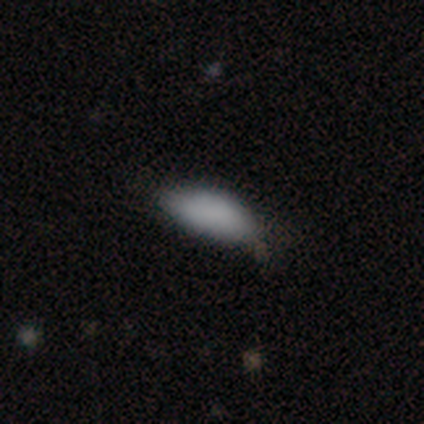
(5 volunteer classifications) Smooth or featured?
  - smooth: 60% *
  - featured or disk: 40%
  - star or artifact: 0%
How rounded?
  - in between: 67% *
  - cigar-shaped: 33%
  - round: 0%
Merging?
  - minor disturbance: 80% *
  - none: 20%
  - major disturbance: 0%
  - merger: 0%